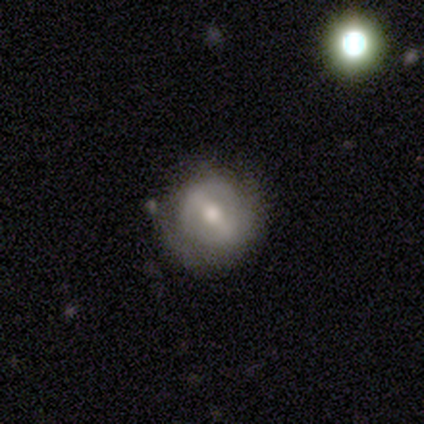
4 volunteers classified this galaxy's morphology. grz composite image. It shows a featured or disk galaxy (75%) with a strong bar (67%), 2 (50%, tied with can't tell) tight (50%, tied with loose) spiral arms (67%) and a moderate central bulge (100%). Merging: none (75%).